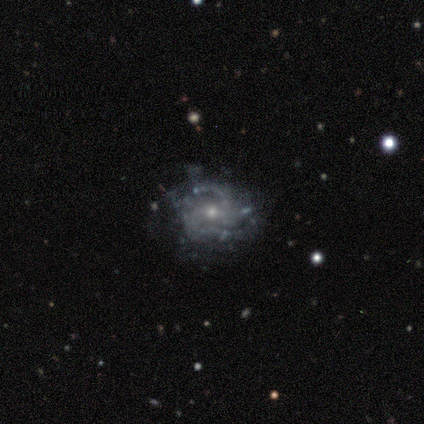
This is clearly a featured or disk galaxy (88%). It is clearly not viewed edge-on (95%). Bar: likely no (62%). Spiral arm pattern: likely yes (70%). Spiral arm count: likely 2 (61%). Spiral winding: possibly medium (54%). Central bulge: likely small (72%). Merging: possibly none (49%).